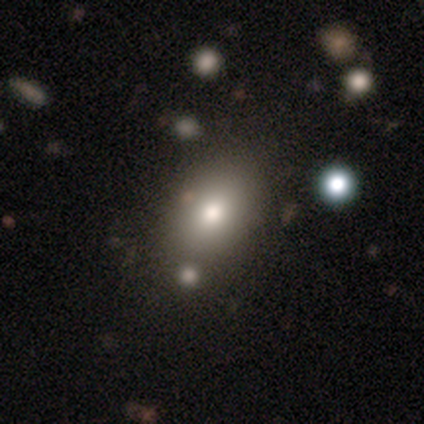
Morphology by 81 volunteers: smooth 79%, featured or disk 11%, star or artifact 10%. Down the decision tree: how rounded — in between (72%); merging — none (40%).